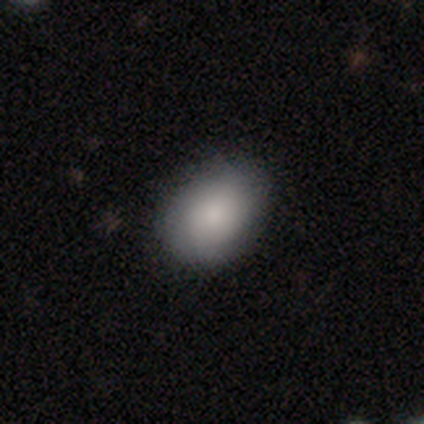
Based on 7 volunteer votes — A smooth galaxy with no disk features (71%) that is in between round and cigar-shaped (100%).

Vote fractions:
- Smooth or featured? smooth: 71% / featured or disk: 29% / star or artifact: 0%
- How rounded? in between: 100% / round: 0% / cigar-shaped: 0%
- Merging? none: 86% / minor disturbance: 14% / major disturbance: 0% / merger: 0%